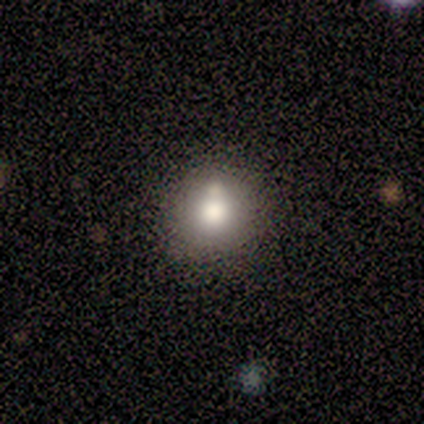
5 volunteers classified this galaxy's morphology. This appears to be a smooth galaxy with no disk features (100%) that is round (80%). Merging: none (40%, tied with merger).